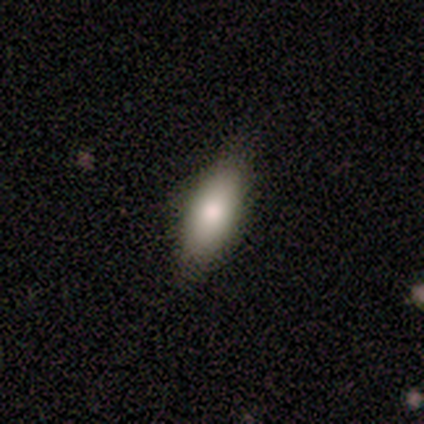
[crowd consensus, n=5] This is clearly a smooth galaxy (100%). How rounded: clearly in between (80%). Merging: likely none (60%).